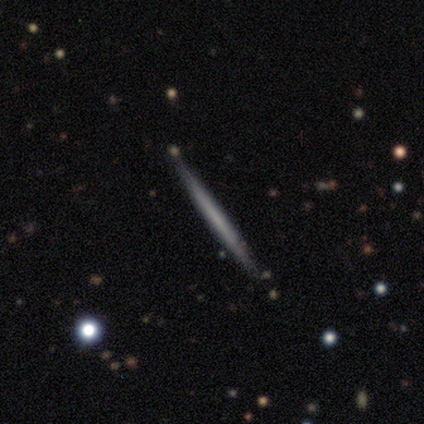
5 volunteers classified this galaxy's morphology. This appears to be a featured or disk galaxy (60%) viewed edge-on (100%) with no central bulge (100%). Merging: none (100%).